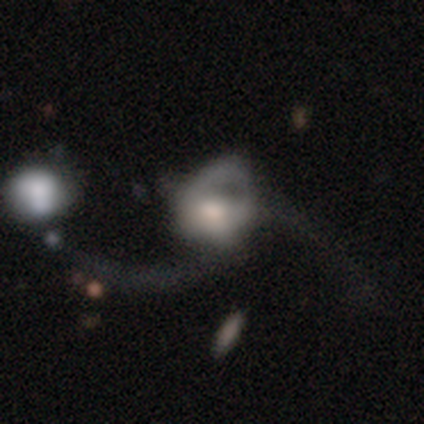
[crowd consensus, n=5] Smooth or featured? featured or disk (80%)
Edge-on disk? no (100%)
Bar? no (75%)
Spiral arms? yes (75%)
Spiral winding? loose (100%)
Spiral arm count? 2 (67%)
Bulge size? moderate (50%)
Merging? major disturbance (60%)